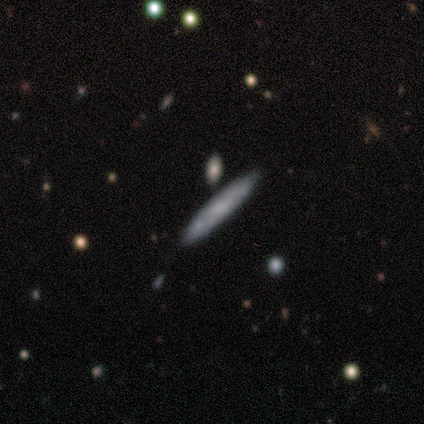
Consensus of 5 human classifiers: Smooth or featured: featured or disk — 60% (smooth — 40%)
Edge-on disk: yes — 100%
Edge-on bulge: rounded — 67% (none — 33%)
Merging: none — 80% (merger — 20%)